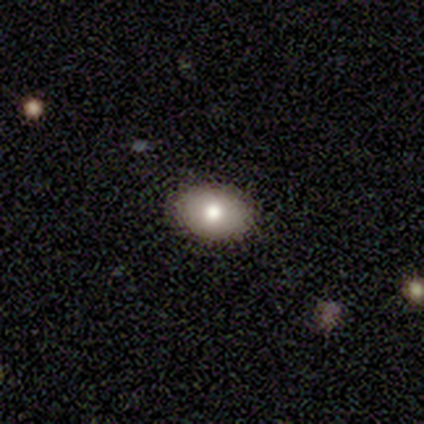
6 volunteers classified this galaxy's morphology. type=smooth (100%); roundness=in between (100%); merging=none (83%).